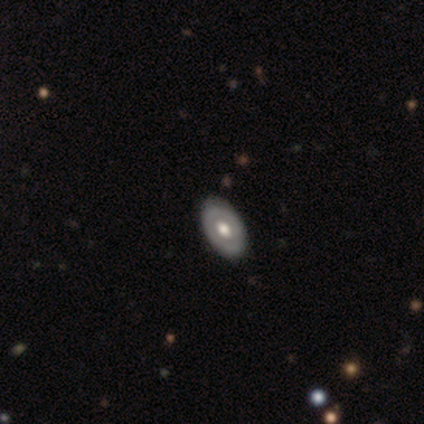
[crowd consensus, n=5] This appears to be a featured or disk galaxy (60%) with no bar (100%), no spiral arms (100%) and a moderate central bulge (100%). Merging: none (80%).